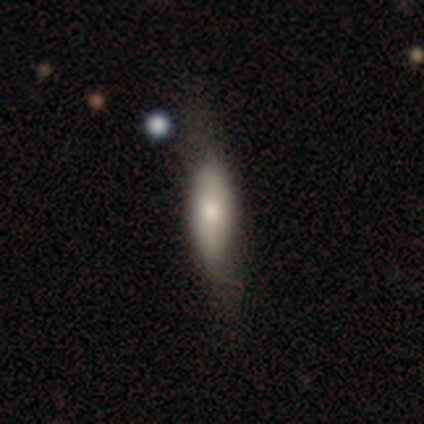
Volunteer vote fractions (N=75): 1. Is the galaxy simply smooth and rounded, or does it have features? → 72% smooth, 25% featured or disk, 3% star or artifact.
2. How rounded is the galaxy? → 52% cigar-shaped, 48% in between, 0% round.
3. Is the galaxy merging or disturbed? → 34% none, 14% minor disturbance, 8% major disturbance, 3% merger.